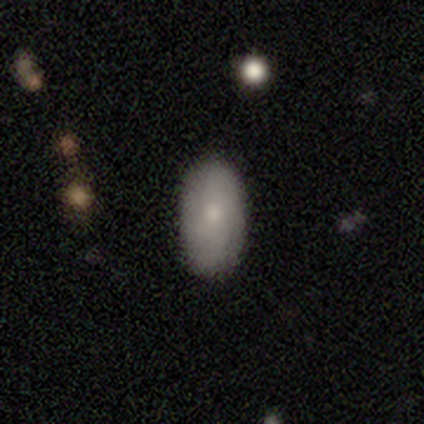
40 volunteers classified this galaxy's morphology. smooth 65%, featured or disk 30%, star or artifact 5%. Down the decision tree: how rounded — in between (88%); merging — none (92%).